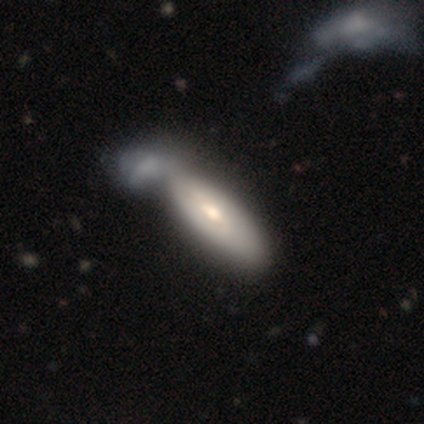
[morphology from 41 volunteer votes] Smooth or featured? 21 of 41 (51%) said smooth. How rounded? 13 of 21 (62%) said in between. Merging? 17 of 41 (41%) said merger.